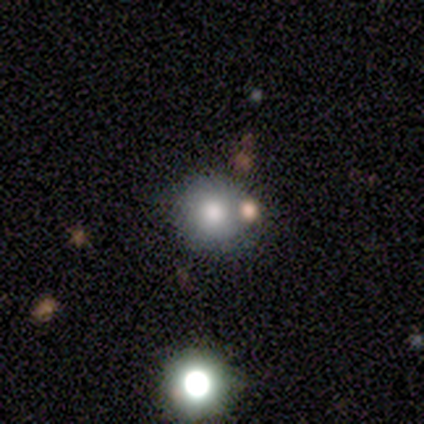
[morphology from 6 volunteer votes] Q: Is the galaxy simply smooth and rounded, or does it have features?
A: smooth — 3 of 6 (50%).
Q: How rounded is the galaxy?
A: round — 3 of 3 (100%).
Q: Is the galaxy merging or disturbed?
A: none — 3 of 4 (75%).